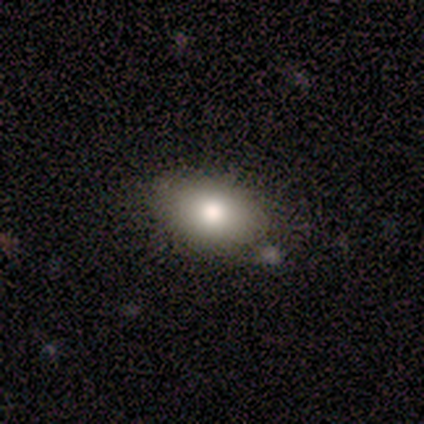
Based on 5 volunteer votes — This appears to be a smooth galaxy with no disk features (100%) that is in between round and cigar-shaped (100%). Merging: none (80%).